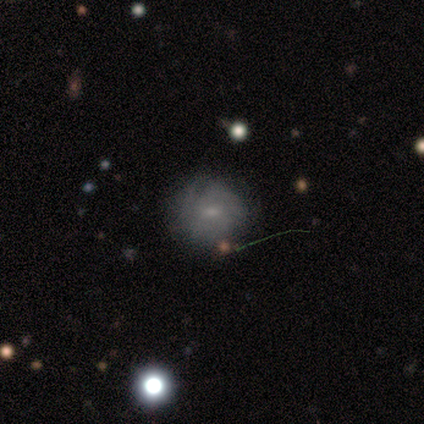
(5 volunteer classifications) This is marginally a smooth galaxy (40%, tied with featured or disk). How rounded: clearly round (100%). Merging: likely minor disturbance (75%).